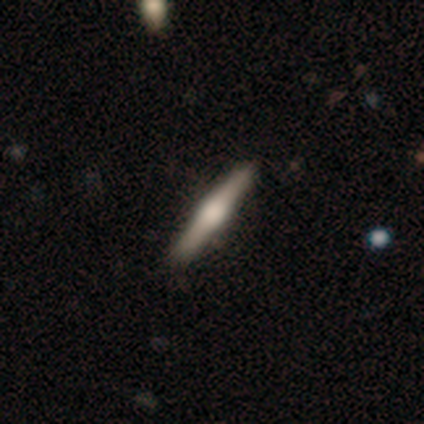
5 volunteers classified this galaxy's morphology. A featured or disk galaxy (80%) viewed edge-on (100%) with a rounded central bulge (75%).

Vote fractions:
- Smooth or featured? featured or disk: 80% / smooth: 20% / star or artifact: 0%
- Edge-on disk? yes: 100% / no: 0%
- Edge-on bulge? rounded: 75% / boxy: 25% / none: 0%
- Merging? none: 100% / minor disturbance: 0% / major disturbance: 0% / merger: 0%